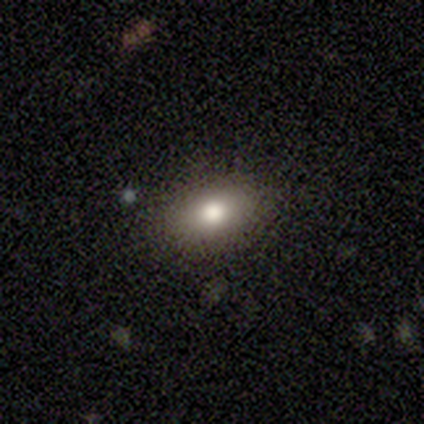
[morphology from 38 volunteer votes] Overall: smooth (76%). How rounded: in between (66%; round 28%). Merging: none (91%).